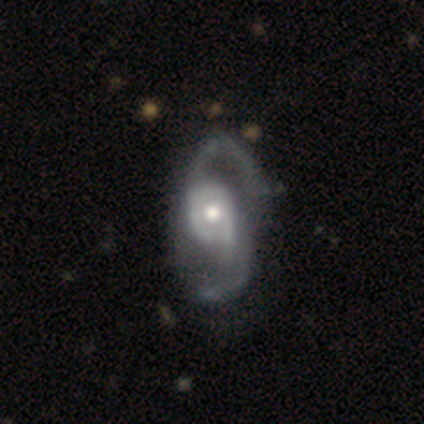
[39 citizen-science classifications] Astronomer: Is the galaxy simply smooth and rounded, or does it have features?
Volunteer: featured or disk — 90%.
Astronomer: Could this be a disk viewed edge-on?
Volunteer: no — 100%.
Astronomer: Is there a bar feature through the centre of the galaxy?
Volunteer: no — 66%.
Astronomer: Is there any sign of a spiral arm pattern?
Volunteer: yes — 100%.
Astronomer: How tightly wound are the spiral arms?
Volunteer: loose — 57% (runner-up: medium, 43%).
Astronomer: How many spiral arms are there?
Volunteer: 2 — 94%.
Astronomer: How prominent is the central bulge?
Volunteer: moderate — 63%.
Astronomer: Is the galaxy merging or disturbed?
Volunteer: none — 39%.